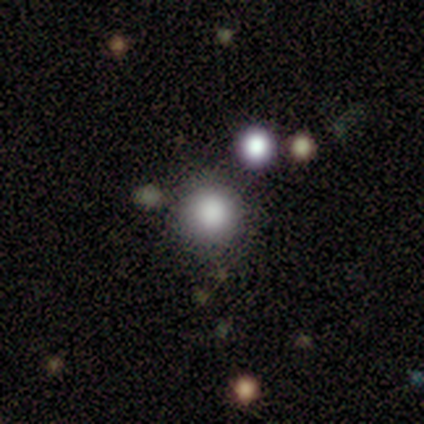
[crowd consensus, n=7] A smooth galaxy with no disk features (71%) that is round (80%). Merging: none (100%).